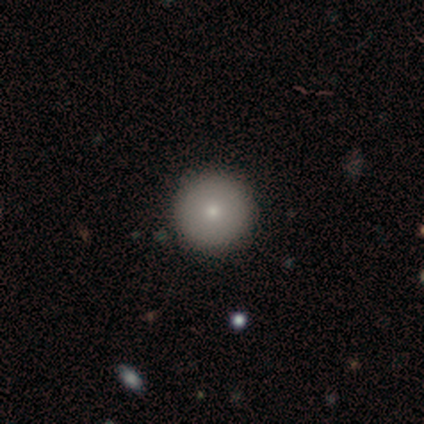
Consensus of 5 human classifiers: Consensus on every question: smooth or featured — smooth (100%); how rounded — round (100%); merging — none (100%).